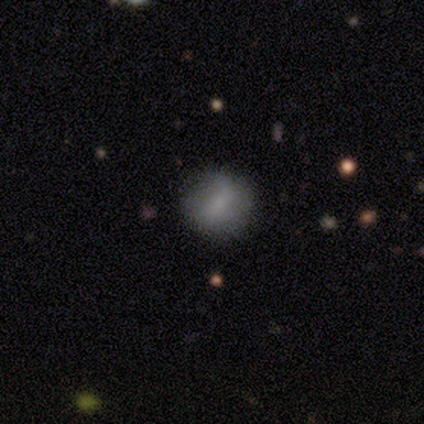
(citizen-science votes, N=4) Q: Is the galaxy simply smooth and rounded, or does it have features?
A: smooth — 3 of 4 (75%).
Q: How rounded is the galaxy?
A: round — 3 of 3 (100%).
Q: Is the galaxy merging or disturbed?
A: none — 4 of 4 (100%).